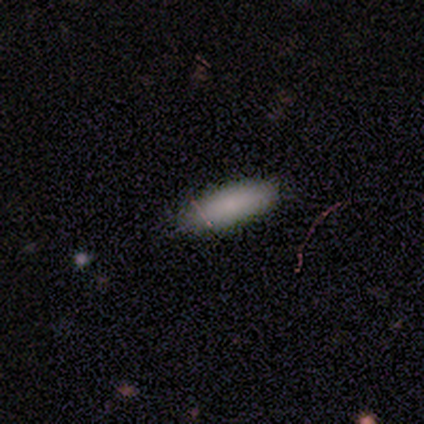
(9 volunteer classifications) Smooth or featured: smooth — 100%
How rounded: in between — 78% (round — 11%)
Merging: none — 89% (minor disturbance — 11%)